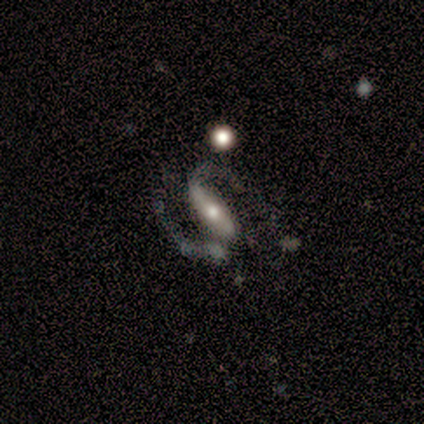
Q: Smooth or featured?
A: featured or disk (100%)
Q: Edge-on disk?
A: no (100%)
Q: Bar?
A: strong (80%); runner-up: weak (20%)
Q: Spiral arms?
A: yes (80%); runner-up: no (20%)
Q: Spiral winding?
A: medium (50%); runner-up: tight (25%)
Q: Spiral arm count?
A: 2 (100%)
Q: Bulge size?
A: moderate (60%); runner-up: small (40%)
Q: Merging?
A: none (80%); runner-up: major disturbance (20%)